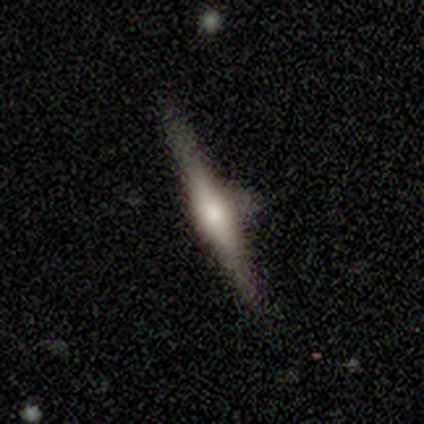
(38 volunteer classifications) Smooth or featured?
  - featured or disk: 68% *
  - smooth: 18%
  - star or artifact: 13%
Edge-on disk?
  - yes: 96% *
  - no: 4%
Edge-on bulge?
  - rounded: 80% *
  - boxy: 20%
  - none: 0%
Merging?
  - none: 67% *
  - minor disturbance: 24%
  - major disturbance: 9%
  - merger: 0%